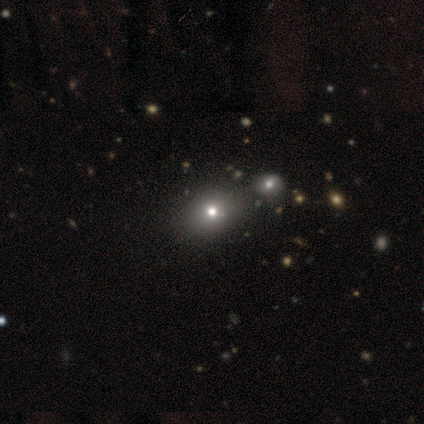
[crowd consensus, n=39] Smooth or featured? 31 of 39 (79%) said smooth. How rounded? 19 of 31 (61%) said round. Merging? 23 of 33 (70%) said none.